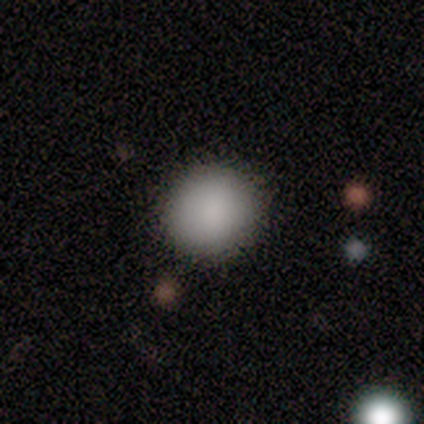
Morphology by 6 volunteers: smooth 100%, featured or disk 0%, star or artifact 0%. Down the decision tree: how rounded — round (100%); merging — none (83%).